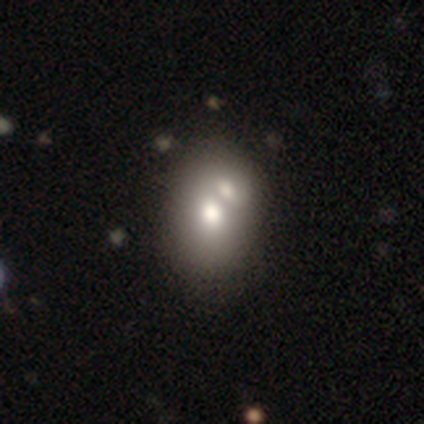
This is clearly a smooth galaxy (80%). How rounded: likely in between (62%). Merging: possibly merger (57%).